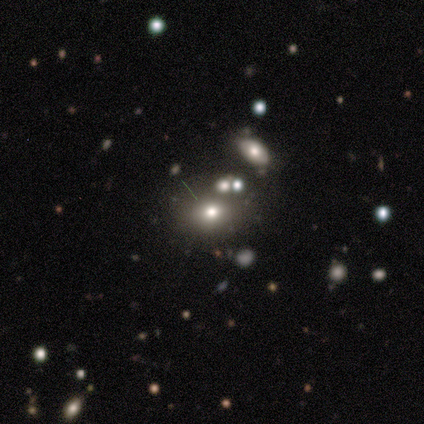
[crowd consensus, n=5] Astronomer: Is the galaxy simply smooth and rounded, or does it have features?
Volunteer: star or artifact — 60% (runner-up: smooth, 40%).